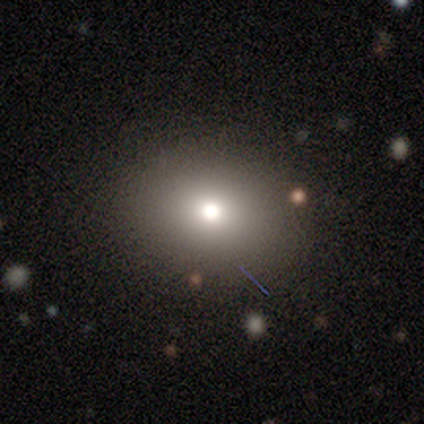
Smooth or featured?
  - featured or disk: 40% * (tied)
  - star or artifact: 40% * (tied)
  - smooth: 20%
Edge-on disk?
  - no: 100% *
  - yes: 0%
Bar?
  - no: 100% *
  - strong: 0%
  - weak: 0%
Spiral arms?
  - no: 100% *
  - yes: 0%
Bulge size?
  - large: 50% * (tied)
  - small: 50% * (tied)
  - dominant: 0%
  - moderate: 0%
  - none: 0%
Merging?
  - none: 67% *
  - merger: 33%
  - minor disturbance: 0%
  - major disturbance: 0%